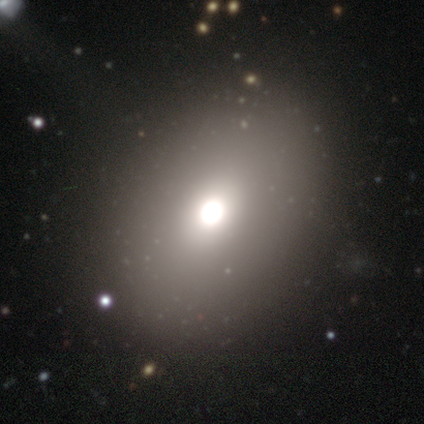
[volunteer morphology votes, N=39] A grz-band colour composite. It shows a smooth galaxy with no disk features (72%) that is in between round and cigar-shaped (57%). Merging: none (58%).